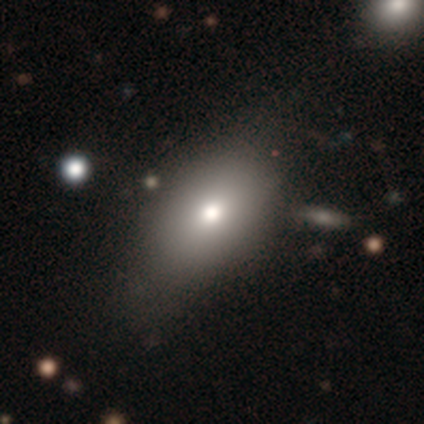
Overall: smooth (50%, tied with featured or disk). How rounded: in between (100%). Merging: none (100%).